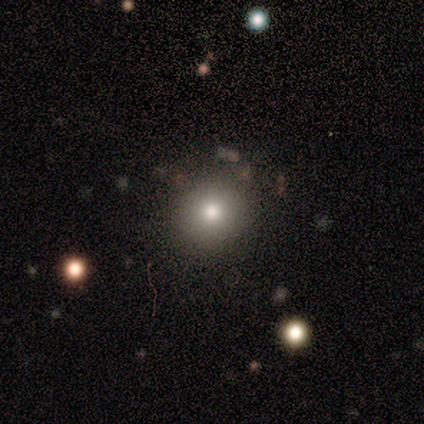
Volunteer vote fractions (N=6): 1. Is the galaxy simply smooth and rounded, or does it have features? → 83% smooth, 17% star or artifact, 0% featured or disk.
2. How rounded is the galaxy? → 100% round, 0% in between, 0% cigar-shaped.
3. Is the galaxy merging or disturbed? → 80% none, 20% minor disturbance, 0% major disturbance, 0% merger.